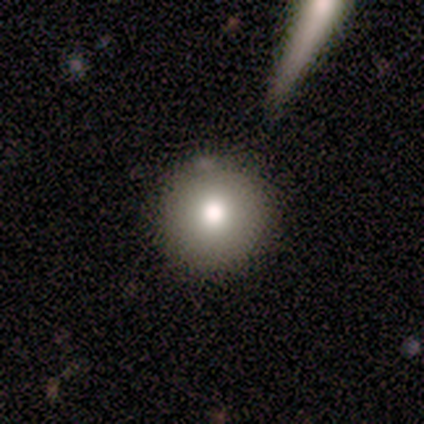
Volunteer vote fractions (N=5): Morphology: type=smooth (100%); roundness=round (100%); merging=none (80%).